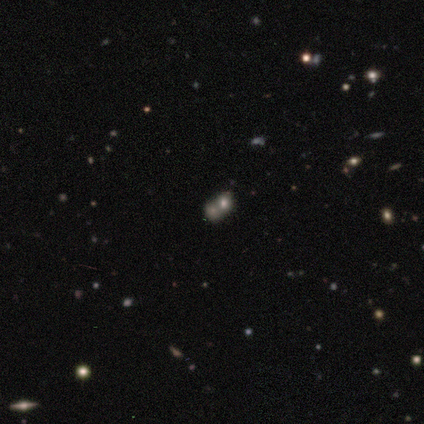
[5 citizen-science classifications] Smooth or featured? smooth (60%)
How rounded? round (67%)
Merging? none (50%, tied with merger)